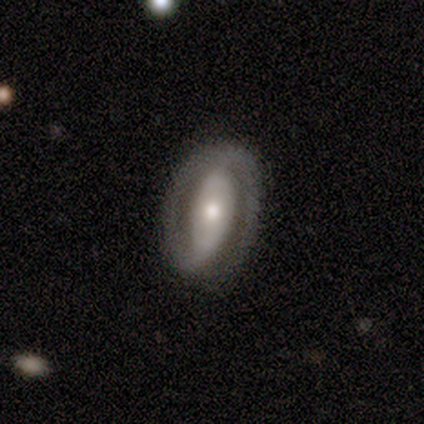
This is clearly a featured or disk galaxy (84%). It is clearly not viewed edge-on (97%). Bar: possibly strong (48%). Spiral arm pattern: likely yes (68%). Spiral arm count: clearly 2 (81%). Spiral winding: possibly tight (57%). Central bulge: likely moderate (61%). Merging: likely none (76%).